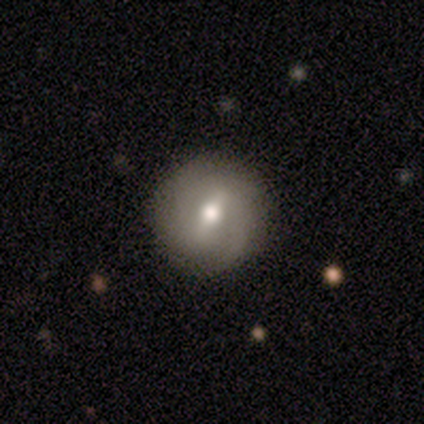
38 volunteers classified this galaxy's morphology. Smooth or featured?
  - featured or disk: 45% *
  - smooth: 34%
  - star or artifact: 21%
Edge-on disk?
  - no: 94% *
  - yes: 6%
Bar?
  - weak: 75% *
  - strong: 12%
  - no: 12%
Spiral arms?
  - yes: 69% *
  - no: 31%
Spiral winding?
  - medium: 73% *
  - tight: 18%
  - loose: 9%
Spiral arm count?
  - 2: 55% *
  - 1: 18%
  - 3: 9%
  - 4: 9%
  - can't tell: 9%
  - more than 4: 0%
Bulge size?
  - moderate: 69% *
  - small: 19%
  - large: 12%
  - dominant: 0%
  - none: 0%
Merging?
  - none: 90% *
  - minor disturbance: 10%
  - major disturbance: 0%
  - merger: 0%